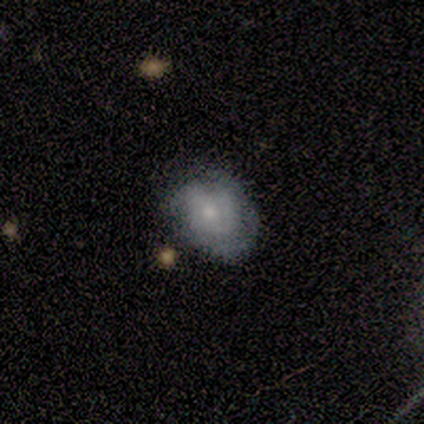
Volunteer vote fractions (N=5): smooth_or_featured: featured or disk (p=0.80) [alt: smooth p=0.20]
disk_edge_on: no (p=1.00)
bar: no (p=0.75) [alt: weak p=0.25]
has_spiral_arms: yes (p=1.00)
spiral_winding: medium (p=0.50) [alt: tight p=0.25]
spiral_arm_count: 3 (p=0.50) [alt: 1 p=0.25]
bulge_size: moderate (p=0.50) [tied with: small p=0.50]
merging: none (p=0.60) [alt: minor disturbance p=0.20]